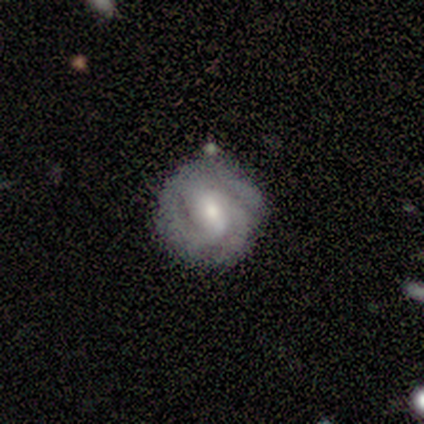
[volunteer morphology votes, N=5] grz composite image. It shows a smooth galaxy with no disk features (60%) that is round (100%). Merging: none (80%).